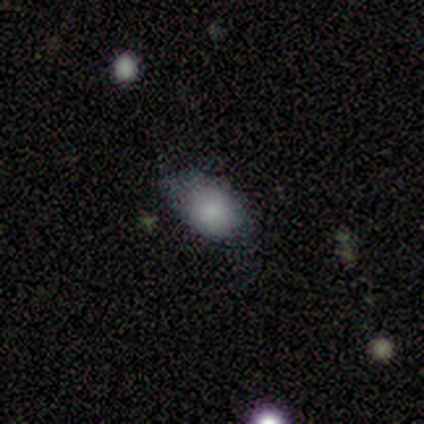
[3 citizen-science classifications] This appears to be a smooth galaxy with no disk features (100%) that is in between round and cigar-shaped (67%). Merging: minor disturbance (67%).